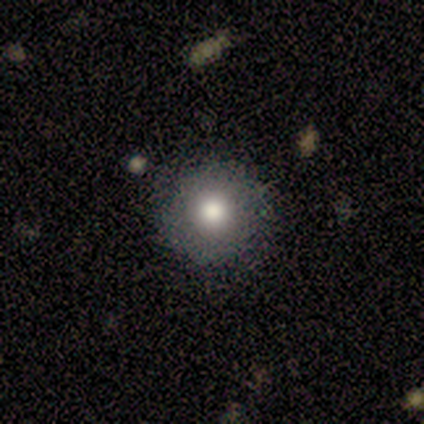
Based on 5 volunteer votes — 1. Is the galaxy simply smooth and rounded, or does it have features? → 80% smooth, 20% featured or disk, 0% star or artifact.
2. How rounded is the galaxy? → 100% round, 0% in between, 0% cigar-shaped.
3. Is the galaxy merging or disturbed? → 100% none, 0% minor disturbance, 0% major disturbance, 0% merger.